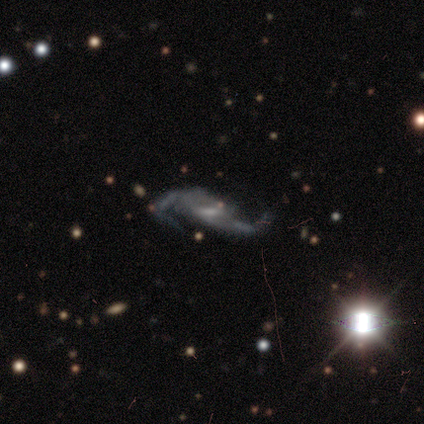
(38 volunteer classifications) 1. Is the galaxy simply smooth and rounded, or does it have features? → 87% featured or disk, 8% smooth, 5% star or artifact.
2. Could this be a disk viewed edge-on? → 94% no, 6% yes.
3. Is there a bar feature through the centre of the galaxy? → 58% weak, 29% no, 13% strong.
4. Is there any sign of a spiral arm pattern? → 94% yes, 6% no.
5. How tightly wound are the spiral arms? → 76% loose, 24% medium, 0% tight.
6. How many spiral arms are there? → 100% 2, 0% 1, 0% 3, 0% 4, 0% more than 4, 0% can't tell.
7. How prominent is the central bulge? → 52% small, 26% moderate, 19% none, 3% large, 0% dominant.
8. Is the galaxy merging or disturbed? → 28% none, 22% major disturbance, 3% minor disturbance, 0% merger.